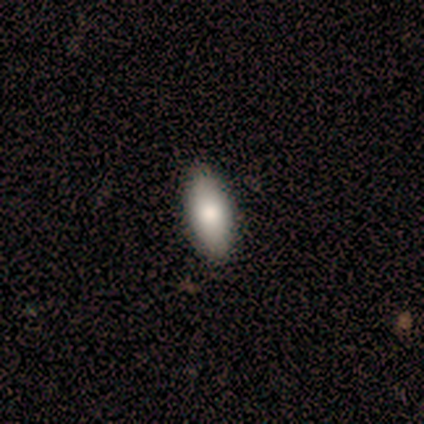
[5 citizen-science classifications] smooth_or_featured: smooth (p=1.00)
how_rounded: in between (p=0.80) [alt: cigar-shaped p=0.20]
merging: none (p=0.80) [alt: minor disturbance p=0.20]